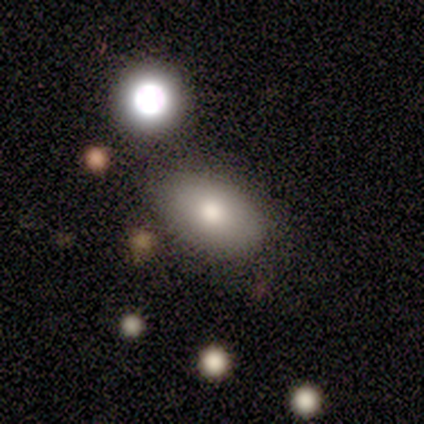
A smooth galaxy with no disk features (100%) that is in between round and cigar-shaped (100%). Merging: none (100%).